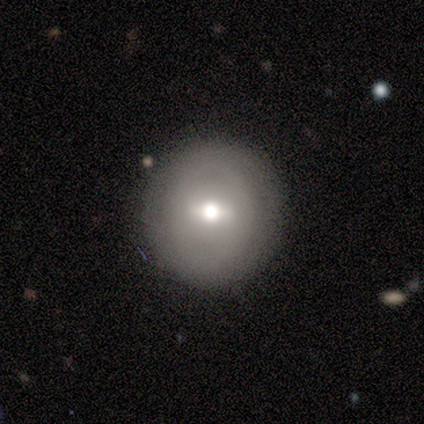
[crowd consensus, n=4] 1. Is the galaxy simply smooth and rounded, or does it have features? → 75% featured or disk, 25% smooth, 0% star or artifact.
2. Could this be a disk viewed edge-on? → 100% no, 0% yes.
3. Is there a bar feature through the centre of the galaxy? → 100% weak, 0% strong, 0% no.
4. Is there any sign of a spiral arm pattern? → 67% no, 33% yes.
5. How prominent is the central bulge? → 67% moderate, 33% large, 0% dominant, 0% small, 0% none.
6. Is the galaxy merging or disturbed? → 75% none, 25% minor disturbance, 0% major disturbance, 0% merger.